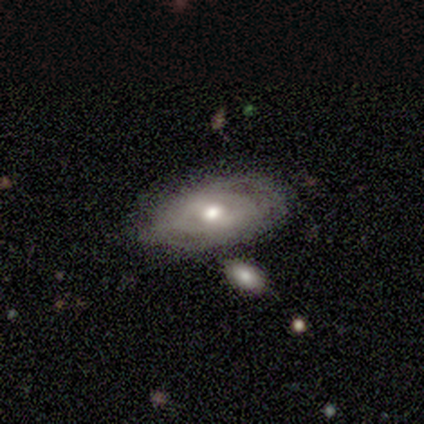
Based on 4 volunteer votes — Smooth or featured: featured or disk — 50% (smooth — 25%)
Edge-on disk: no — 100%
Bar: weak — 50% (tied with no — 50%)
Spiral arms: yes — 100%
Spiral winding: tight — 50% (tied with loose — 50%)
Spiral arm count: 2 — 50% (tied with can't tell — 50%)
Bulge size: moderate — 50% (tied with small — 50%)
Merging: none — 67% (minor disturbance — 33%)